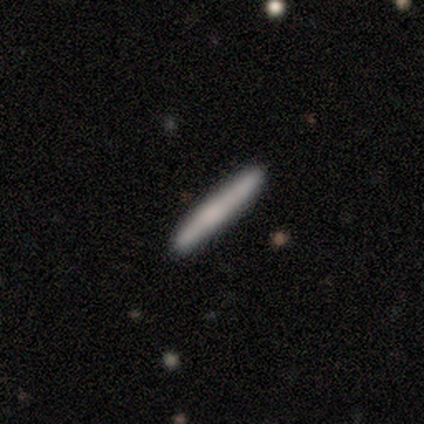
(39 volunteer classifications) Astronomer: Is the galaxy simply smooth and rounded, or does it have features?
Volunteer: smooth — 59%.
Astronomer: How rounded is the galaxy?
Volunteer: cigar-shaped — 100%.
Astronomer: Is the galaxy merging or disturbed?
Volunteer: none — 85%.